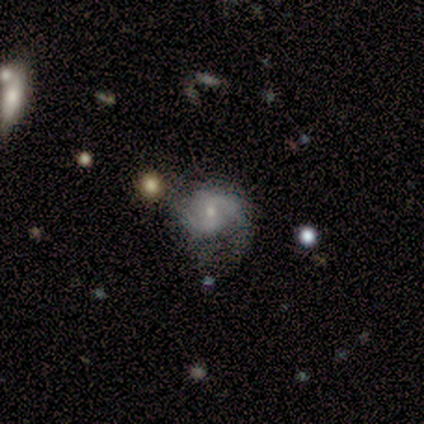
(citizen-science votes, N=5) Morphology: type=featured or disk (80%); edge-on=no (100%); bar=weak (75%); spiral arms=yes (100%); winding=tight (50%, tied with medium); arm count=2 (100%); bulge=moderate (50%, tied with small); merging=minor disturbance (60%).